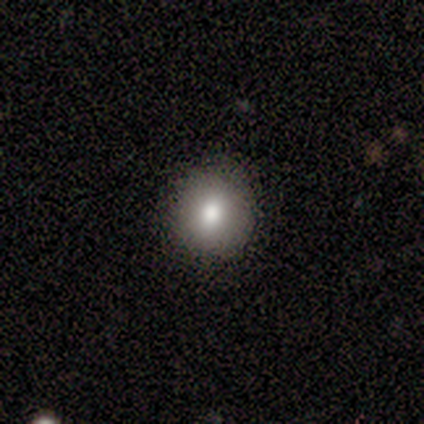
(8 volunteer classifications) This is clearly a smooth galaxy (88%). How rounded: likely round (71%). Merging: likely none (71%).